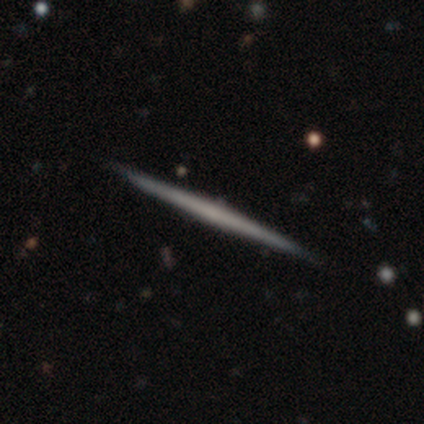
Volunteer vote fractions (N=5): A featured or disk galaxy (80%) viewed edge-on (100%) with no central bulge (100%).

Vote fractions:
- Smooth or featured? featured or disk: 80% / smooth: 20% / star or artifact: 0%
- Edge-on disk? yes: 100% / no: 0%
- Edge-on bulge? none: 100% / boxy: 0% / rounded: 0%
- Merging? none: 100% / minor disturbance: 0% / major disturbance: 0% / merger: 0%